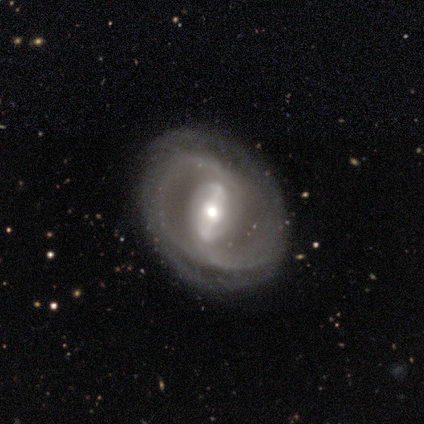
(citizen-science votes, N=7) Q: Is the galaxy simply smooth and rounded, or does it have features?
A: featured or disk — 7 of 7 (100%).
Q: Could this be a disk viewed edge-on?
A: no — 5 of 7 (71%).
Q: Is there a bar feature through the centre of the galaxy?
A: strong — 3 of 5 (60%).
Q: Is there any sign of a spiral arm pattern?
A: yes — 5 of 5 (100%).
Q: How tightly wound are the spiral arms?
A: medium — 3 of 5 (60%).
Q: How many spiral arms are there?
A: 2 — 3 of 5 (60%).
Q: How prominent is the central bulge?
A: moderate — 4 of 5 (80%).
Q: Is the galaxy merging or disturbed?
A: none — 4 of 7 (57%).